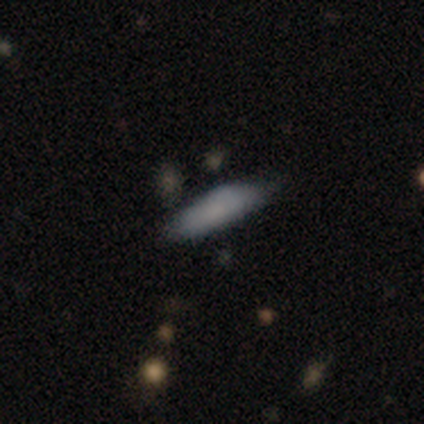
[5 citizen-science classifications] smooth_or_featured: smooth (p=1.00)
how_rounded: cigar-shaped (p=0.60) [alt: in between p=0.40]
merging: none (p=0.60) [alt: minor disturbance p=0.40]